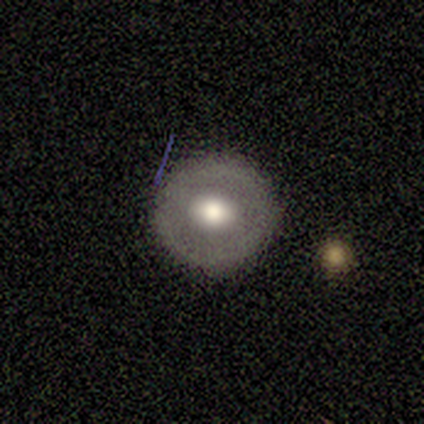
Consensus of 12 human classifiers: smooth_or_featured: smooth (p=0.58) [alt: featured or disk p=0.33]
how_rounded: round (p=1.00)
merging: none (p=1.00)